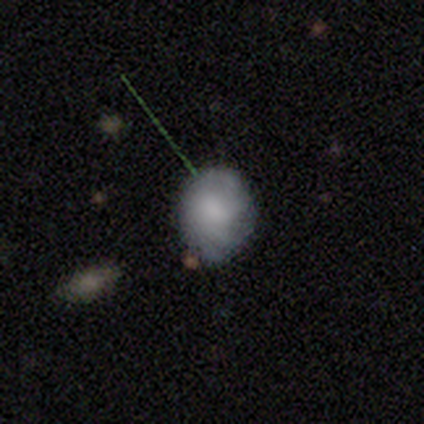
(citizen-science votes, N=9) Q: Smooth or featured?
A: smooth (56%); runner-up: featured or disk (33%)
Q: How rounded?
A: in between (60%); runner-up: round (40%)
Q: Merging?
A: none (50%); runner-up: minor disturbance (38%)